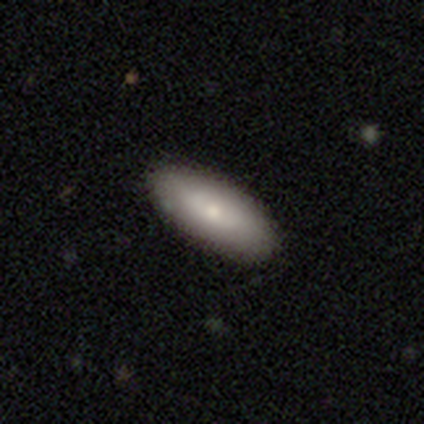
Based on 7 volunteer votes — Q: Smooth or featured?
A: smooth (57%); runner-up: featured or disk (29%)
Q: How rounded?
A: in between (75%); runner-up: cigar-shaped (25%)
Q: Merging?
A: none (83%); runner-up: minor disturbance (17%)